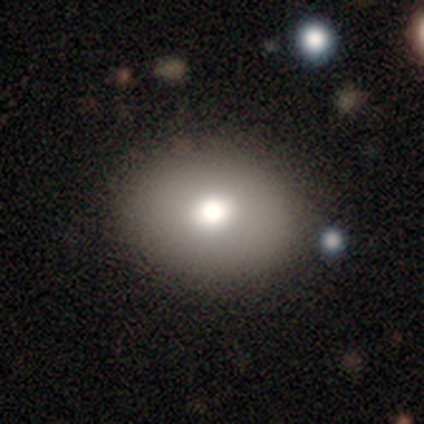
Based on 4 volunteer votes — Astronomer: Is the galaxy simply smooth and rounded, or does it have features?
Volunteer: smooth — 75%.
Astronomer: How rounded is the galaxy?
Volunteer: in between — 100%.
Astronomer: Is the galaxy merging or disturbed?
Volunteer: none — 100%.